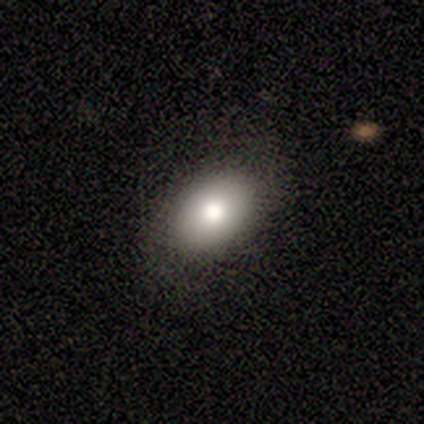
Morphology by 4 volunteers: A smooth galaxy with no disk features (50%) that is in between round and cigar-shaped (100%).

Vote fractions:
- Smooth or featured? smooth: 50% / featured or disk: 25% / star or artifact: 25%
- How rounded? in between: 100% / round: 0% / cigar-shaped: 0%
- Merging? none: 100% / minor disturbance: 0% / major disturbance: 0% / merger: 0%